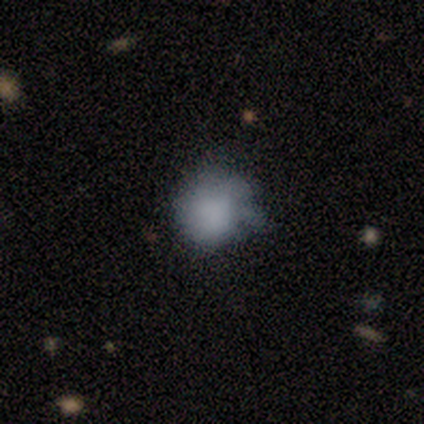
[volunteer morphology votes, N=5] This is likely a smooth galaxy (60%). How rounded: clearly round (100%). Merging: clearly none (80%).